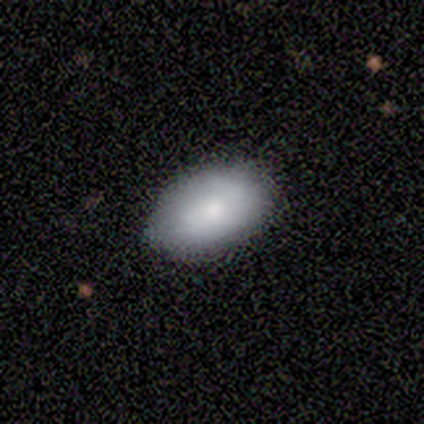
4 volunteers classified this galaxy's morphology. This is possibly a featured or disk galaxy (50%). It is clearly not viewed edge-on (100%). Bar: clearly no (100%). Spiral arm pattern: possibly yes (50%, tied with no). Spiral arm count: clearly 1 (100%). Spiral winding: clearly loose (100%). Central bulge: possibly dominant (50%, tied with moderate). Merging: clearly none (100%).